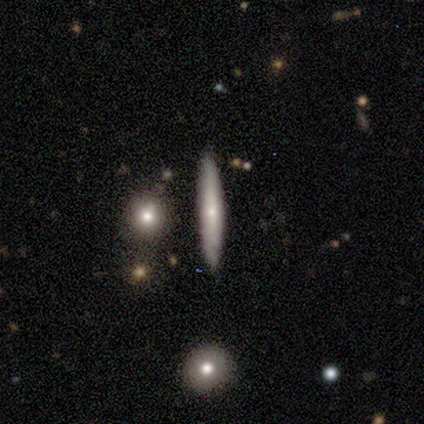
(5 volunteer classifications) A featured or disk galaxy (60%) viewed edge-on (100%) with a rounded central bulge (67%).

Vote fractions:
- Smooth or featured? featured or disk: 60% / smooth: 40% / star or artifact: 0%
- Edge-on disk? yes: 100% / no: 0%
- Edge-on bulge? rounded: 67% / none: 33% / boxy: 0%
- Merging? none: 80% / minor disturbance: 20% / major disturbance: 0% / merger: 0%